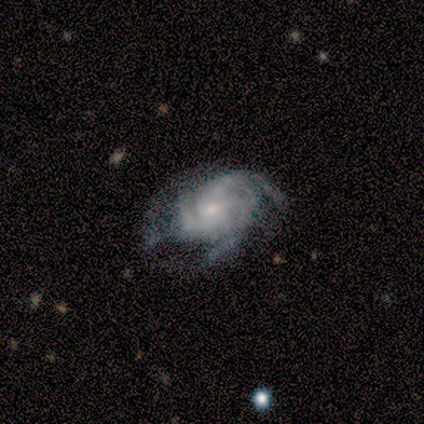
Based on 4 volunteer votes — Volunteers were most divided on "spiral arm count" (2-way tie): 3: 50%, can't tell: 50%, 1: 0%, 2: 0%, 4: 0%, more than 4: 0%. More confident: smooth or featured — featured or disk (100%); edge-on disk — no (100%); spiral arms — yes (100%); bar — no (75%); spiral winding — tight (75%); bulge size — small (75%); merging — minor disturbance (50%).